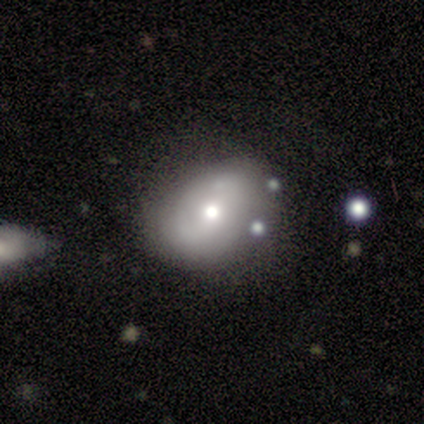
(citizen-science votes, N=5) This is likely a smooth galaxy (60%). How rounded: likely in between (67%). Merging: clearly none (100%).